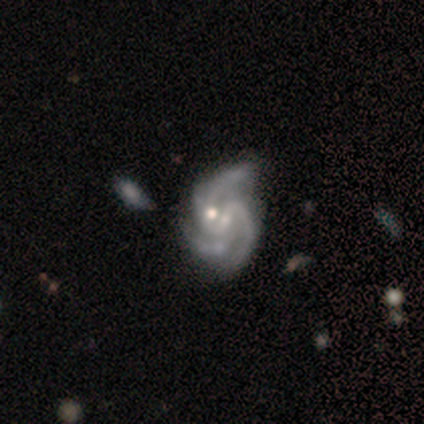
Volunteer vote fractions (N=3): Smooth or featured? featured or disk (100%)
Edge-on disk? no (100%)
Bar? strong (33%, tied with weak and no)
Spiral arms? yes (100%)
Spiral winding? medium (100%)
Spiral arm count? 2 (67%)
Bulge size? moderate (67%)
Merging? none (33%, tied with minor disturbance and merger)